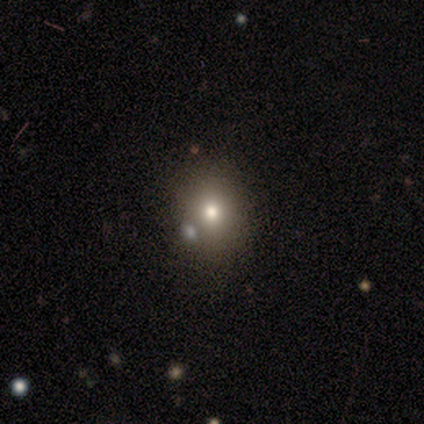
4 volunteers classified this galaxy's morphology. Smooth or featured?
  - smooth: 50% * (tied)
  - star or artifact: 50% * (tied)
  - featured or disk: 0%
How rounded?
  - round: 100% *
  - in between: 0%
  - cigar-shaped: 0%
Merging?
  - none: 50% * (tied)
  - minor disturbance: 50% * (tied)
  - major disturbance: 0%
  - merger: 0%